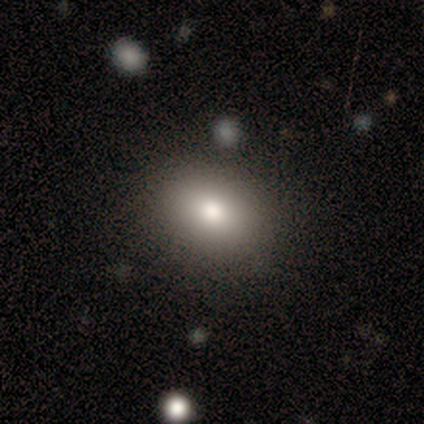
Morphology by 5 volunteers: A smooth galaxy with no disk features (80%) that is in between round and cigar-shaped (75%).

Vote fractions:
- Smooth or featured? smooth: 80% / star or artifact: 20% / featured or disk: 0%
- How rounded? in between: 75% / round: 25% / cigar-shaped: 0%
- Merging? none: 75% / minor disturbance: 25% / major disturbance: 0% / merger: 0%